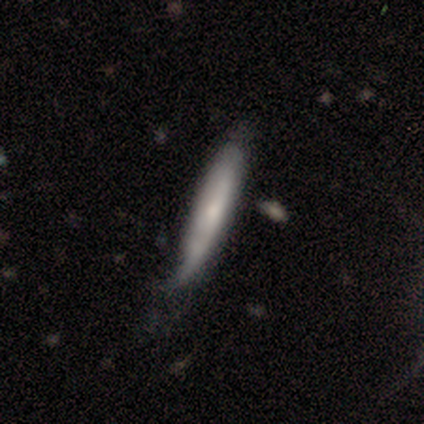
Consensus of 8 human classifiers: Smooth or featured? featured or disk (50%)
Edge-on disk? yes (50%, tied with no)
Edge-on bulge? none (50%, tied with rounded)
Merging? none (43%, tied with minor disturbance)